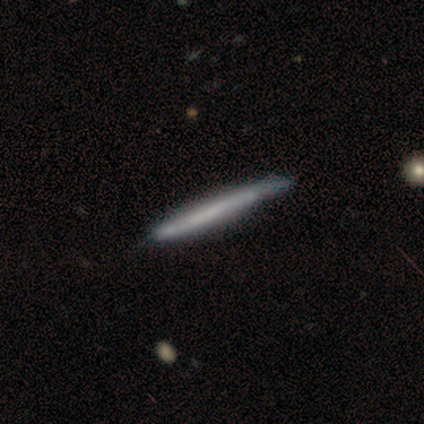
smooth-or-featured: featured or disk: 54% | smooth: 41% | star or artifact: 5%
  disk-edge-on: yes: 95% | no: 5%
    edge-on-bulge: none: 90% | rounded: 10% | boxy: 0%
  merging: none: 41% | minor disturbance: 22% | major disturbance: 3% | merger: 3%